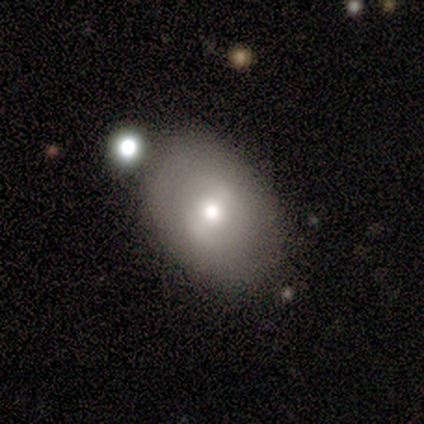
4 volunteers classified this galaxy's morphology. A featured or disk galaxy (100%) with no bar (100%), no spiral arms (100%) and a moderate central bulge (50%, tied with small). Merging: none (75%).